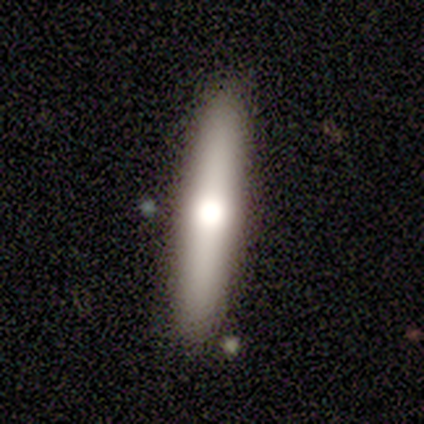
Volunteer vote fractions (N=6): A featured or disk galaxy (50%) with no bar (100%), no spiral arms (100%) and a moderate central bulge (100%). Merging: none (100%).